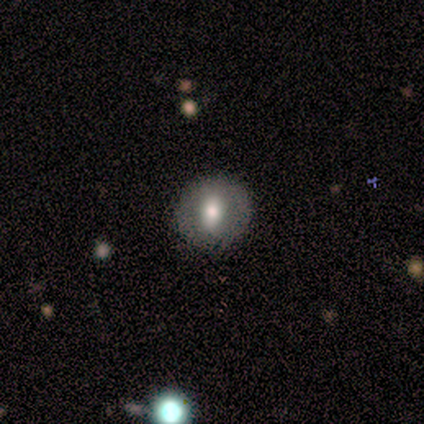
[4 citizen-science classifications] A smooth galaxy with no disk features (50%, tied with featured or disk) that is round (100%).

Vote fractions:
- Smooth or featured? smooth: 50% (tied) / featured or disk: 50% (tied) / star or artifact: 0%
- How rounded? round: 100% / in between: 0% / cigar-shaped: 0%
- Merging? none: 100% / minor disturbance: 0% / major disturbance: 0% / merger: 0%